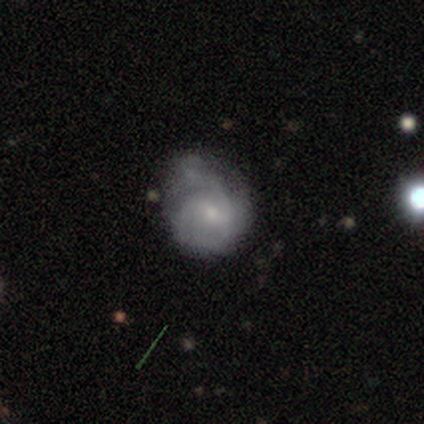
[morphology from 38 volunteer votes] A featured or disk galaxy (66%) with a weak bar (52%), 2 (35%, tied with can't tell) loose (47%) spiral arms (68%) and a small central bulge (48%).

Vote fractions:
- Smooth or featured? featured or disk: 66% / smooth: 34% / star or artifact: 0%
- Edge-on disk? no: 100% / yes: 0%
- Bar? weak: 52% / no: 44% / strong: 4%
- Spiral arms? yes: 68% / no: 32%
- Spiral winding? loose: 47% / medium: 41% / tight: 12%
- Spiral arm count? 2: 35% (tied) / can't tell: 35% (tied) / 3: 18% / 1: 12% / 4: 0% / more than 4: 0%
- Bulge size? small: 48% / moderate: 36% / none: 16% / dominant: 0% / large: 0%
- Merging? none: 37% / major disturbance: 32% / minor disturbance: 26% / merger: 5%